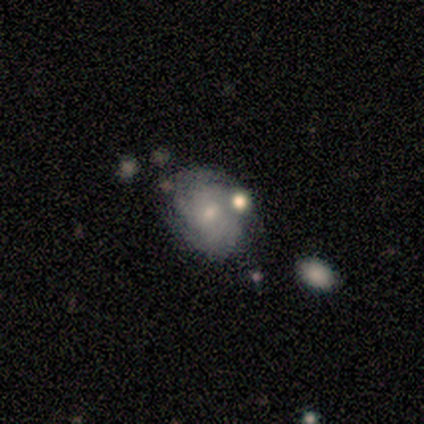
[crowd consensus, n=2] A smooth galaxy with no disk features (50%, tied with star or artifact) that is in between round and cigar-shaped (100%). Merging: merger (100%).